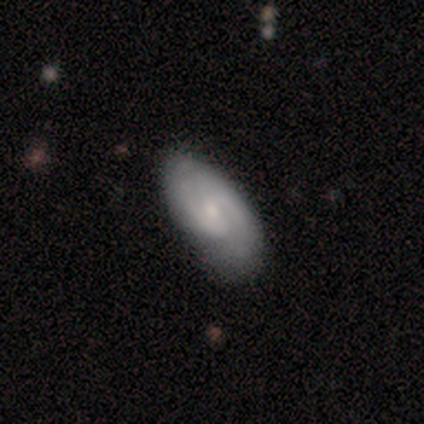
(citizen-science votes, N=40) smooth_or_featured: featured or disk (p=0.80) [alt: smooth p=0.20]
disk_edge_on: no (p=1.00)
bar: no (p=0.66) [alt: weak p=0.31]
has_spiral_arms: yes (p=0.97) [alt: no p=0.03]
spiral_winding: medium (p=0.52) [alt: tight p=0.39]
spiral_arm_count: 2 (p=0.74) [alt: can't tell p=0.16]
bulge_size: small (p=0.62) [alt: moderate p=0.25]
merging: none (p=0.60) [alt: minor disturbance p=0.23]